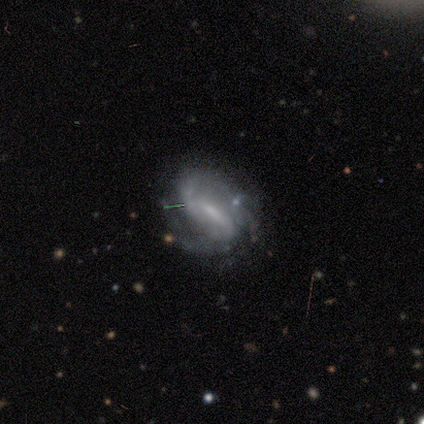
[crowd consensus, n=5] smooth_or_featured: featured or disk (p=0.80) [alt: star or artifact p=0.20]
disk_edge_on: no (p=1.00)
bar: weak (p=0.75) [alt: no p=0.25]
has_spiral_arms: yes (p=1.00)
spiral_winding: medium (p=0.75) [alt: tight p=0.25]
spiral_arm_count: 2 (p=0.75) [alt: 3 p=0.25]
bulge_size: small (p=0.50) [tied with: none p=0.50]
merging: none (p=0.50) [alt: minor disturbance p=0.25]